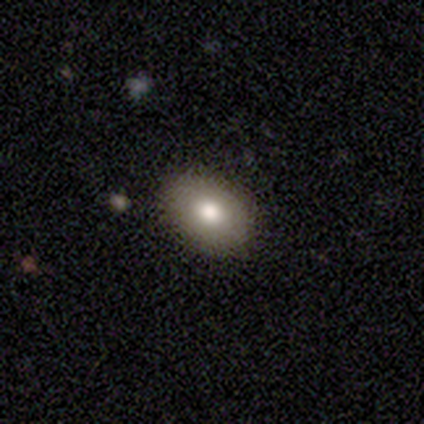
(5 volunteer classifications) Smooth or featured?
  - smooth: 100% *
  - featured or disk: 0%
  - star or artifact: 0%
How rounded?
  - in between: 100% *
  - round: 0%
  - cigar-shaped: 0%
Merging?
  - none: 100% *
  - minor disturbance: 0%
  - major disturbance: 0%
  - merger: 0%